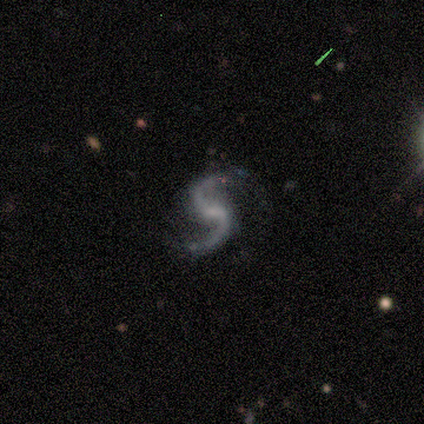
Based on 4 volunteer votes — Q: Smooth or featured?
A: featured or disk (100%)
Q: Edge-on disk?
A: no (100%)
Q: Bar?
A: weak (75%); runner-up: no (25%)
Q: Spiral arms?
A: yes (100%)
Q: Spiral winding?
A: medium (50%); tied with: loose (50%)
Q: Spiral arm count?
A: 2 (100%)
Q: Bulge size?
A: none (50%); runner-up: moderate (25%)
Q: Merging?
A: none (50%); runner-up: minor disturbance (25%)